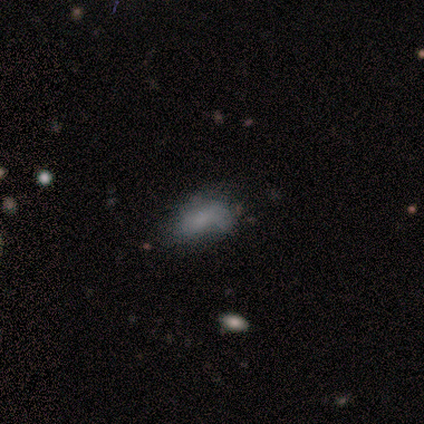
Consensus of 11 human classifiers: Overall: smooth (64%). How rounded: in between (86%). Merging: none (56%; minor disturbance 33%).